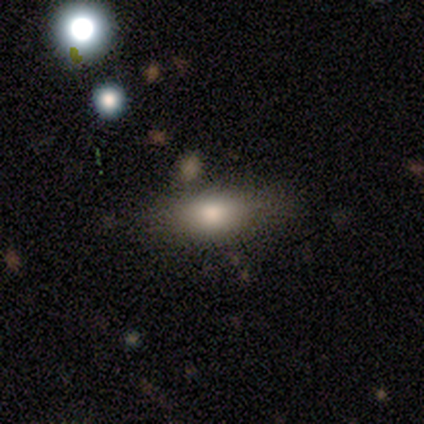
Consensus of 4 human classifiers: Smooth or featured?
  - smooth: 100% *
  - featured or disk: 0%
  - star or artifact: 0%
How rounded?
  - round: 50% *
  - in between: 25%
  - cigar-shaped: 25%
Merging?
  - none: 50% * (tied)
  - minor disturbance: 50% * (tied)
  - major disturbance: 0%
  - merger: 0%